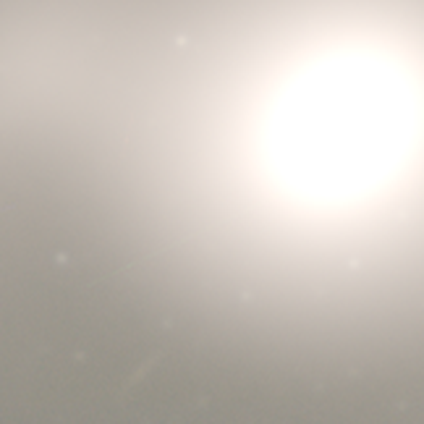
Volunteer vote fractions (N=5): Consensus on every question: smooth or featured — star or artifact (100%).